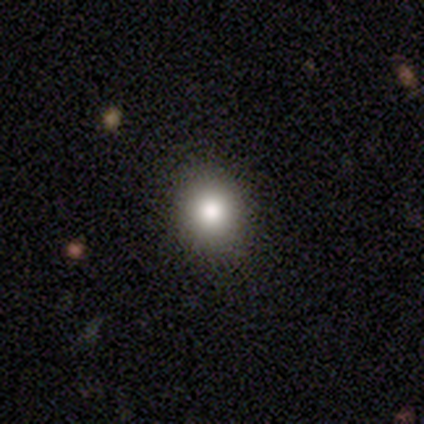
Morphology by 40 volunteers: Volunteers were most divided on "how rounded": round: 81%, in between: 19%, cigar-shaped: 0%. More confident: smooth or featured — smooth (78%); merging — none (71%).